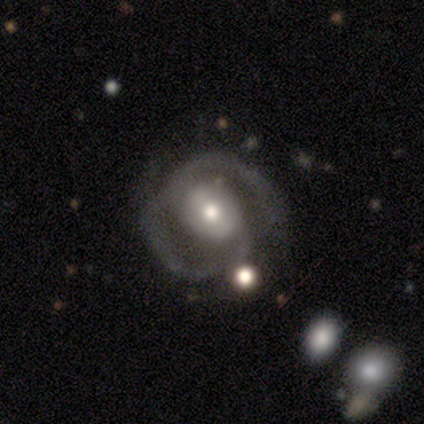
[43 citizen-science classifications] smooth-or-featured: featured or disk: 79% | smooth: 12% | star or artifact: 9%
  disk-edge-on: no: 94% | yes: 6%
    bar: no: 56% | weak: 34% | strong: 9%
    has-spiral-arms: yes: 81% | no: 19%
      spiral-winding: tight: 42% (tied) | medium: 42% (tied) | loose: 15%
      spiral-arm-count: 2: 85% | 1: 8% | can't tell: 8% | 3: 0% | 4: 0% | more than 4: 0%
    bulge-size: moderate: 56% | small: 34% | large: 9% | dominant: 0% | none: 0%
  merging: none: 64% | minor disturbance: 21% | major disturbance: 10% | merger: 5%